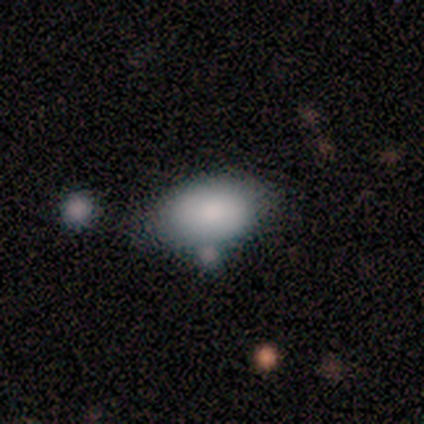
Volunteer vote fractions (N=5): smooth 100%, featured or disk 0%, star or artifact 0%. Down the decision tree: how rounded — in between (100%); merging — none (60%).